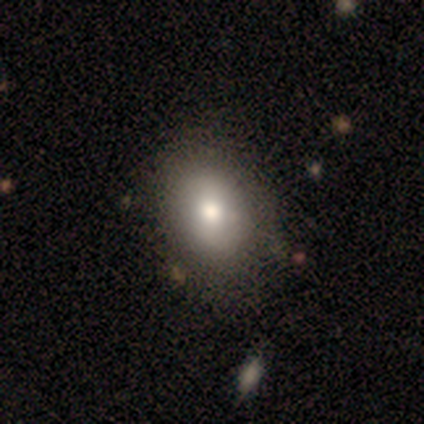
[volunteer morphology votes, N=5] Smooth or featured? 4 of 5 (80%) said smooth. How rounded? 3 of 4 (75%) said in between. Merging? 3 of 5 (60%) said none.